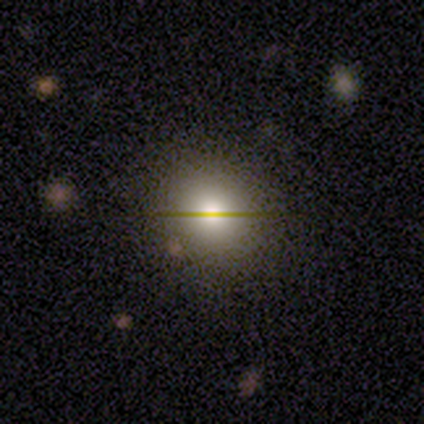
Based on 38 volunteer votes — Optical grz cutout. It shows a smooth galaxy with no disk features (71%) that is round (93%). Merging: none (88%).